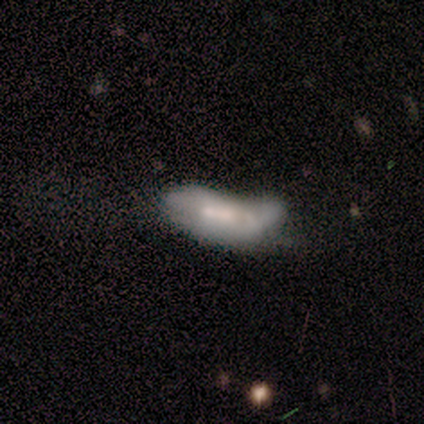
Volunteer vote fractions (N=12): Smooth or featured? smooth (50%, tied with featured or disk)
How rounded? in between (100%)
Merging? major disturbance (33%, tied with merger)